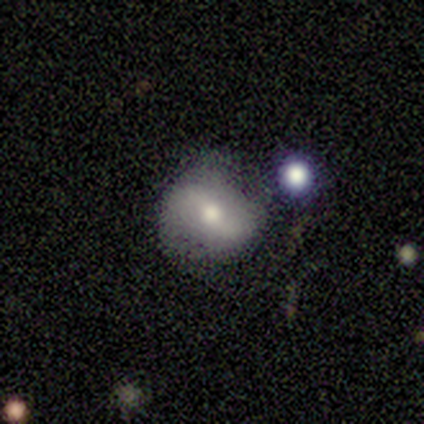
This is clearly a smooth galaxy (80%). How rounded: likely round (75%). Merging: likely none (75%).